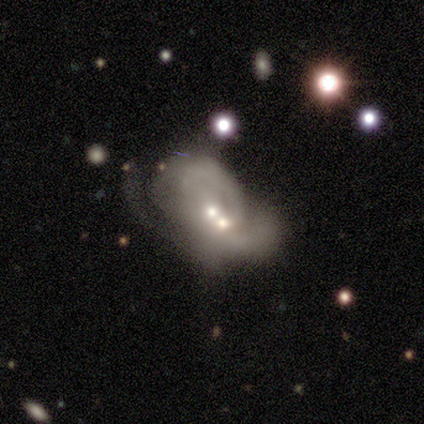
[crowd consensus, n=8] A smooth galaxy with no disk features (50%, tied with featured or disk) that is in between round and cigar-shaped (75%).

Vote fractions:
- Smooth or featured? smooth: 50% (tied) / featured or disk: 50% (tied) / star or artifact: 0%
- How rounded? in between: 75% / round: 25% / cigar-shaped: 0%
- Merging? merger: 75% / none: 12% / major disturbance: 12% / minor disturbance: 0%